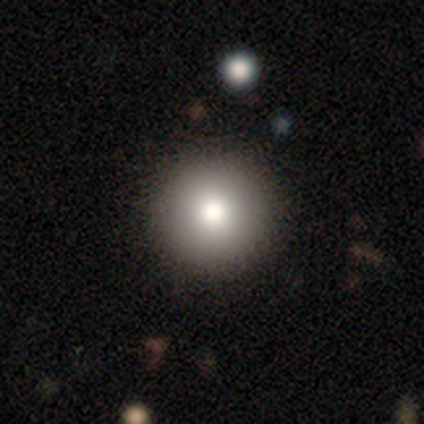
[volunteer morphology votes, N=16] A smooth galaxy with no disk features (75%) that is round (100%). Merging: none (94%).